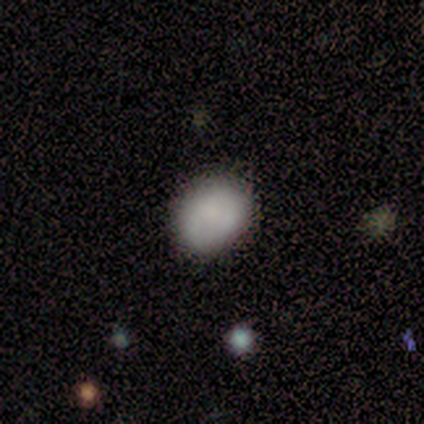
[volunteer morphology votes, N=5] Smooth or featured?
  - smooth: 100% *
  - featured or disk: 0%
  - star or artifact: 0%
How rounded?
  - in between: 60% *
  - round: 40%
  - cigar-shaped: 0%
Merging?
  - minor disturbance: 60% *
  - none: 40%
  - major disturbance: 0%
  - merger: 0%